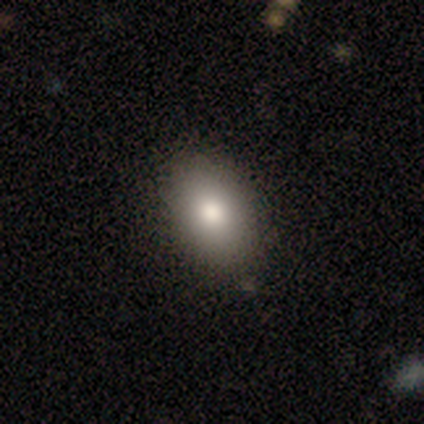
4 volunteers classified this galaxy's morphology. This is likely a smooth galaxy (75%). How rounded: clearly in between (100%). Merging: clearly none (100%).